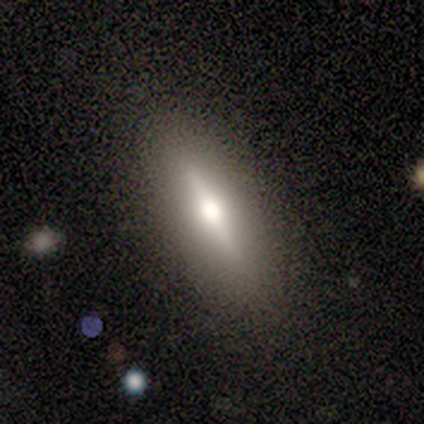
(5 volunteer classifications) Overall: featured or disk (60%; smooth 40%). Edge-on disk: yes (100%). Edge-on bulge: rounded (100%). Merging: none (80%).